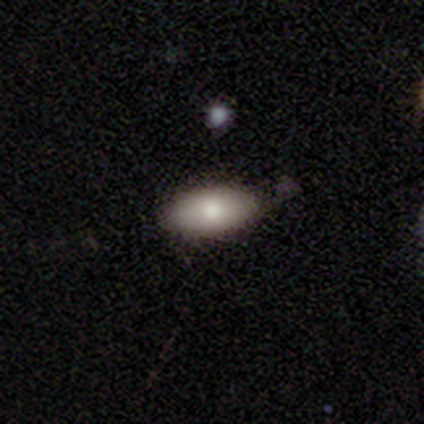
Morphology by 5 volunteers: smooth 80%, featured or disk 20%, star or artifact 0%. Down the decision tree: how rounded — in between (100%); merging — none (60%).